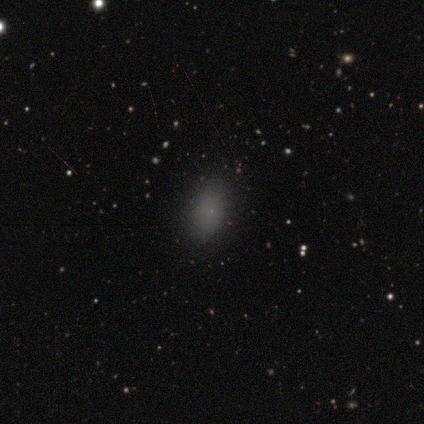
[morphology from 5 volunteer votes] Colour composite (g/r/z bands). It shows a smooth galaxy with no disk features (100%) that is in between round and cigar-shaped (80%). Merging: none (80%).